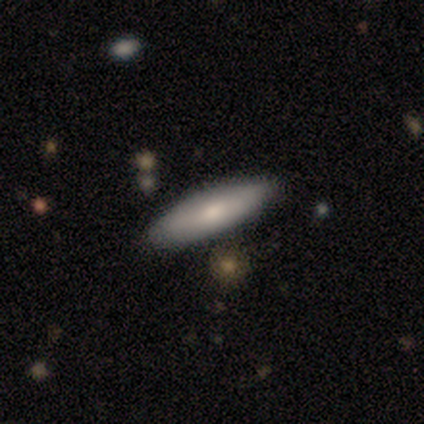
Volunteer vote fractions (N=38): Morphology: type=smooth (82%); roundness=cigar-shaped (65%); merging=none (89%).